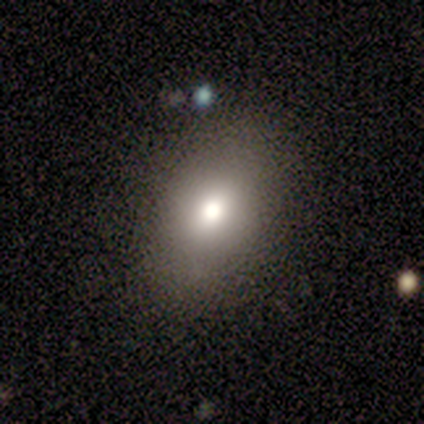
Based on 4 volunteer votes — This is clearly a smooth galaxy (100%). How rounded: clearly in between (100%). Merging: likely none (75%).